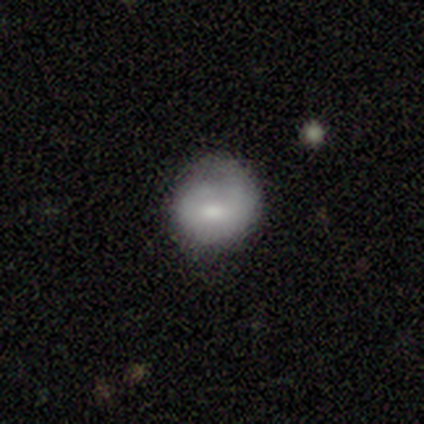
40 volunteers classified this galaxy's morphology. A smooth galaxy with no disk features (68%) that is round (81%).

Vote fractions:
- Smooth or featured? smooth: 68% / featured or disk: 30% / star or artifact: 2%
- How rounded? round: 81% / in between: 19% / cigar-shaped: 0%
- Merging? none: 59% / minor disturbance: 26% / major disturbance: 15% / merger: 0%